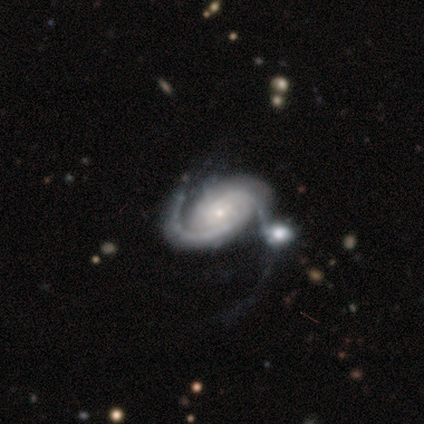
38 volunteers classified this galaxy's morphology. Q: Smooth or featured?
A: featured or disk (92%); runner-up: star or artifact (5%)
Q: Edge-on disk?
A: no (94%); runner-up: yes (6%)
Q: Bar?
A: no (67%); runner-up: weak (21%)
Q: Spiral arms?
A: yes (100%)
Q: Spiral winding?
A: tight (48%); runner-up: medium (33%)
Q: Spiral arm count?
A: 2 (76%); runner-up: 3 (9%)
Q: Bulge size?
A: small (82%); runner-up: moderate (15%)
Q: Merging?
A: merger (33%); runner-up: minor disturbance (25%)